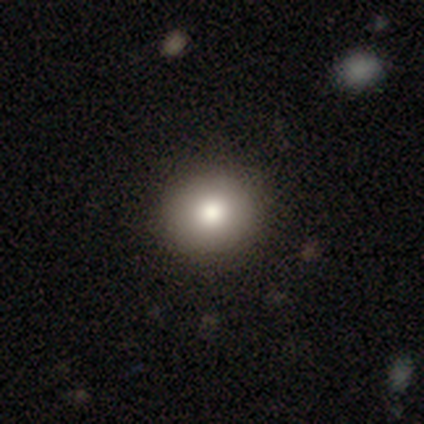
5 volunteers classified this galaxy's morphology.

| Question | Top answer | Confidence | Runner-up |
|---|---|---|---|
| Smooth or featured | smooth | 100% | — |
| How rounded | round | 60% | in between (40%) |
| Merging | none | 80% | minor disturbance (20%) |